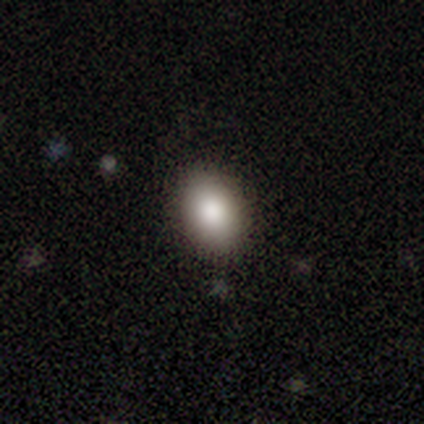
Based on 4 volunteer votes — A smooth galaxy with no disk features (75%) that is in between round and cigar-shaped (67%). Merging: none (100%).